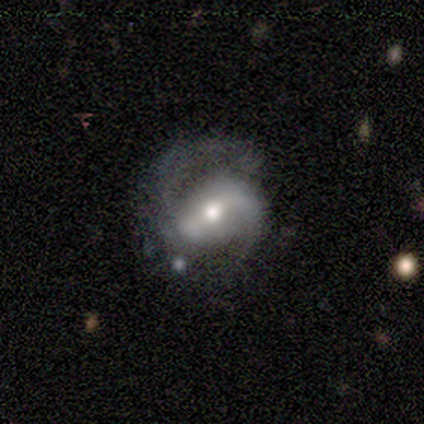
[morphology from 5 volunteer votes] Q: Smooth or featured?
A: featured or disk (60%); runner-up: smooth (20%)
Q: Edge-on disk?
A: no (100%)
Q: Bar?
A: strong (67%); runner-up: no (33%)
Q: Spiral arms?
A: yes (100%)
Q: Spiral winding?
A: medium (67%); runner-up: tight (33%)
Q: Spiral arm count?
A: 2 (100%)
Q: Bulge size?
A: moderate (67%); runner-up: small (33%)
Q: Merging?
A: none (75%); runner-up: major disturbance (25%)